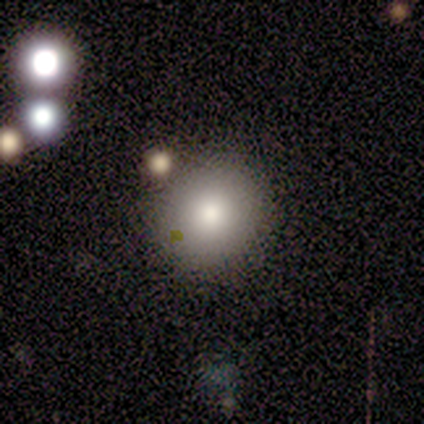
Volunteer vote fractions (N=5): Smooth or featured? smooth (100%)
How rounded? round (100%)
Merging? none (100%)